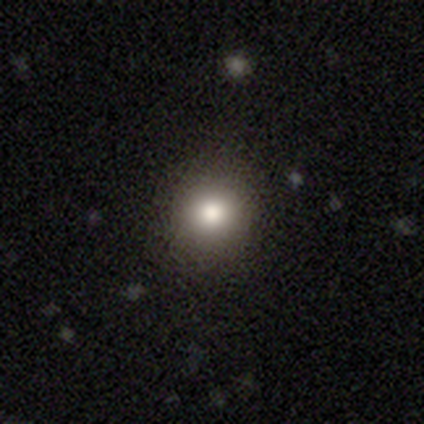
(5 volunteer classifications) A smooth galaxy with no disk features (100%) that is round (100%). Merging: none (80%).